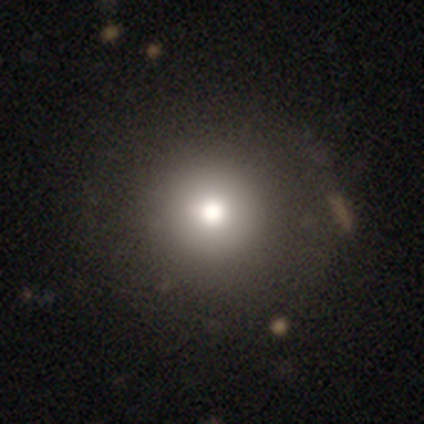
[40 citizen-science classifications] Morphology: type=smooth (70%); roundness=round (100%); merging=none (79%).